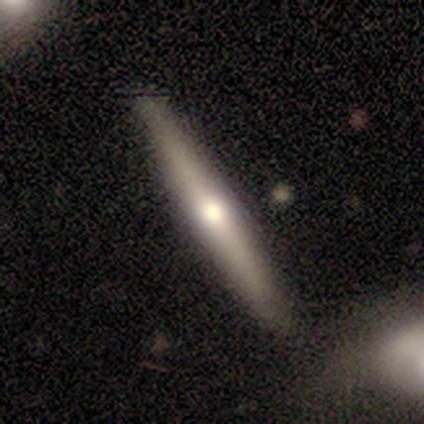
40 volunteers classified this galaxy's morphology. A featured or disk galaxy (62%) viewed edge-on (96%) with a rounded central bulge (96%). Merging: none (59%).